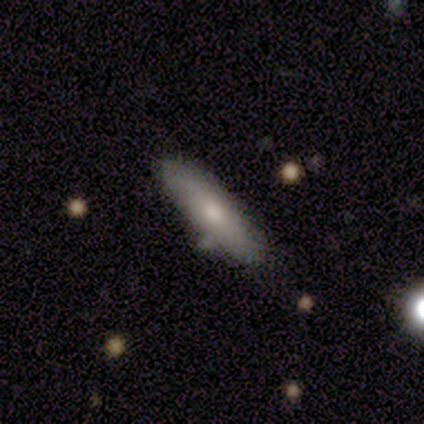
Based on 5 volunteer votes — This is clearly a smooth galaxy (80%). How rounded: likely cigar-shaped (75%). Merging: likely none (60%).